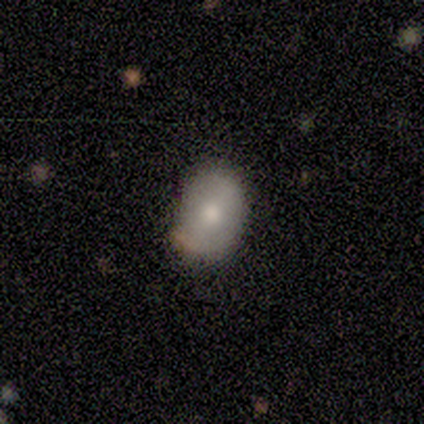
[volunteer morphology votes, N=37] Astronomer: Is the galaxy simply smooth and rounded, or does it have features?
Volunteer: smooth — 65%.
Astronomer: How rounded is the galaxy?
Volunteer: in between — 67%.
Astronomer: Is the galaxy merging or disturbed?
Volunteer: none — 84%.